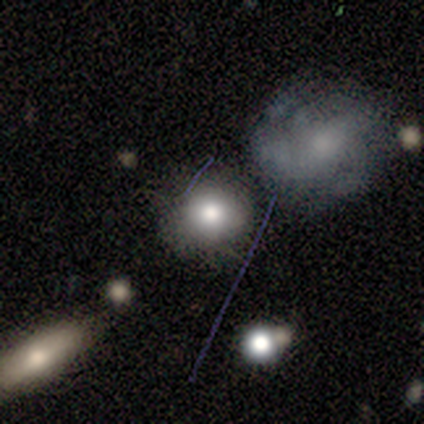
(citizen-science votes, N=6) smooth-or-featured: smooth: 100% | featured or disk: 0% | star or artifact: 0%
  how-rounded: round: 67% | in between: 33% | cigar-shaped: 0%
  merging: none: 83% | minor disturbance: 17% | major disturbance: 0% | merger: 0%